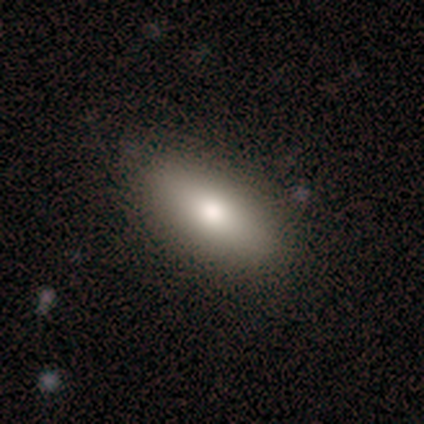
Q: Smooth or featured?
A: smooth (100%)
Q: How rounded?
A: in between (60%); runner-up: cigar-shaped (40%)
Q: Merging?
A: none (80%); runner-up: minor disturbance (20%)